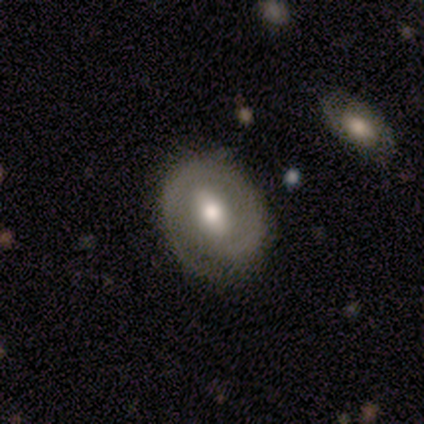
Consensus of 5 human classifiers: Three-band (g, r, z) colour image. It shows a smooth galaxy with no disk features (80%) that is in between round and cigar-shaped (100%). Merging: none (80%).